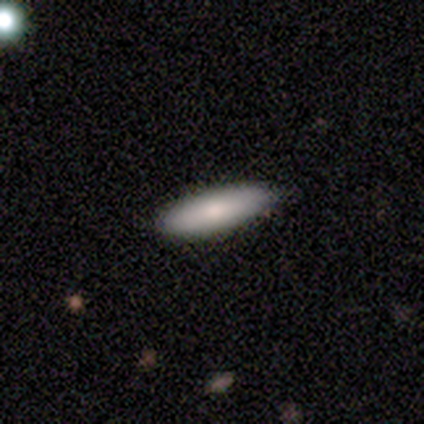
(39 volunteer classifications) Morphology: type=smooth (79%); roundness=cigar-shaped (61%); merging=none (84%).